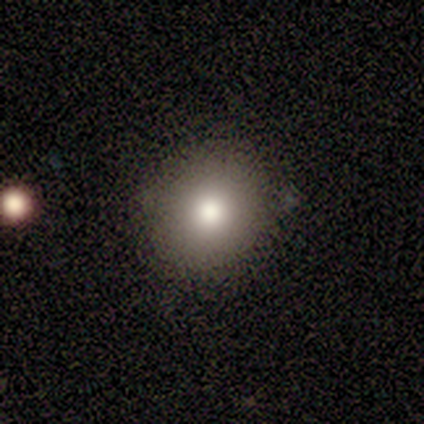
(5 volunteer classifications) This is likely a smooth galaxy (60%). How rounded: clearly round (100%). Merging: clearly none (100%).